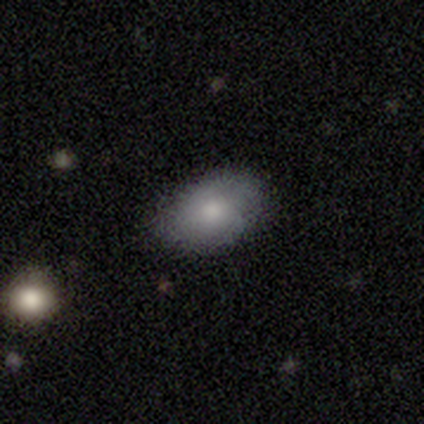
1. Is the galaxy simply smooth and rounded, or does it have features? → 60% smooth, 40% featured or disk, 0% star or artifact.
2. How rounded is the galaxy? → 100% in between, 0% round, 0% cigar-shaped.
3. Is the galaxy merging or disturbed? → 100% none, 0% minor disturbance, 0% major disturbance, 0% merger.